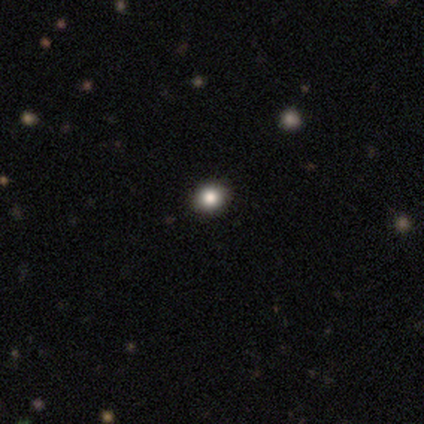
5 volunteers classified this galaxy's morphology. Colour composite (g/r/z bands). It shows a smooth galaxy with no disk features (80%) that is round (75%). Merging: none (100%).